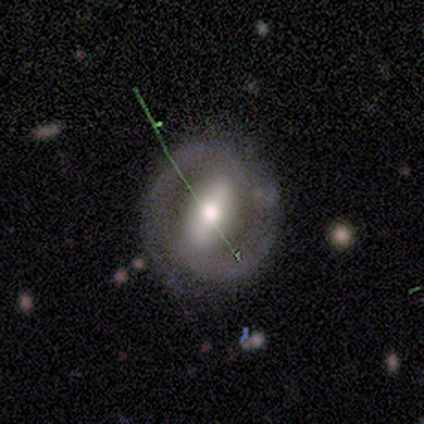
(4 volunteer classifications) smooth_or_featured: featured or disk (p=0.75) [alt: star or artifact p=0.25]
disk_edge_on: no (p=1.00)
bar: strong (p=0.33) [tied with: weak p=0.33, no p=0.33]
has_spiral_arms: yes (p=1.00)
spiral_winding: loose (p=0.67) [alt: tight p=0.33]
spiral_arm_count: 2 (p=0.67) [alt: 1 p=0.33]
bulge_size: large (p=0.67) [alt: moderate p=0.33]
merging: none (p=1.00)